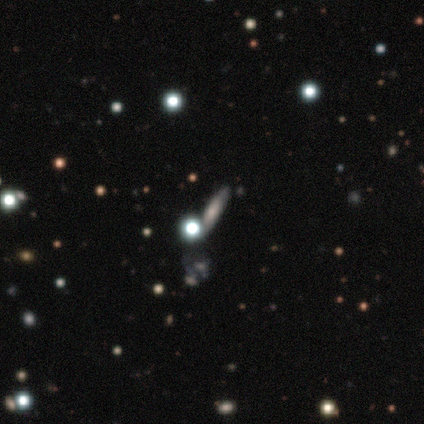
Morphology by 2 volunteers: Volunteers were most divided on "smooth or featured" (2-way tie): smooth: 50%, featured or disk: 50%, star or artifact: 0%. More confident: how rounded — in between (100%); merging — none (100%).